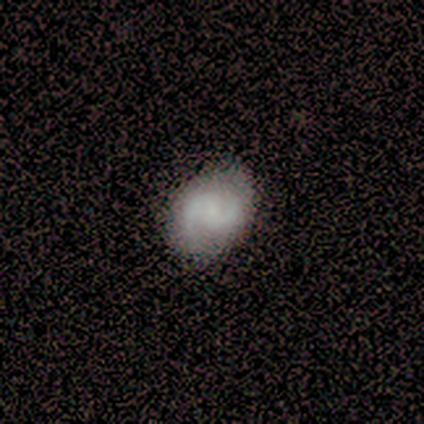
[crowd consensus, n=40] This appears to be a featured or disk galaxy (68%) with no bar (52%), 2 (100%) medium (73%) spiral arms (96%) and a small central bulge (59%). Merging: none (67%).